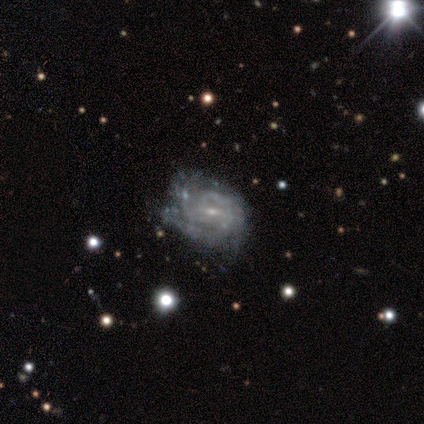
Overall: featured or disk (88%). Edge-on disk: no (100%). Bar: weak (61%; no 28%). Spiral arms: yes (100%). Spiral arm count: 3 (39%; can't tell 28%). Spiral winding: tight (58%; medium 31%). Bulge size: small (81%). Merging: none (50%; minor disturbance 32%).